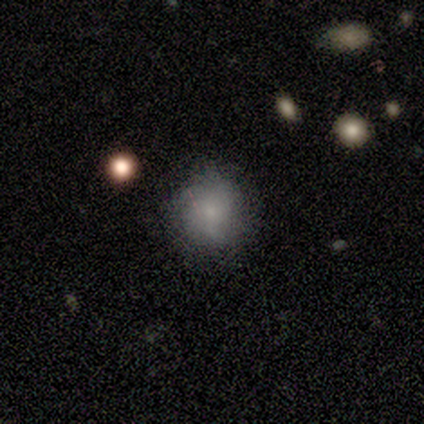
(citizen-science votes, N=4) smooth 75%, featured or disk 25%, star or artifact 0%. Down the decision tree: how rounded — round (100%); merging — none (75%).